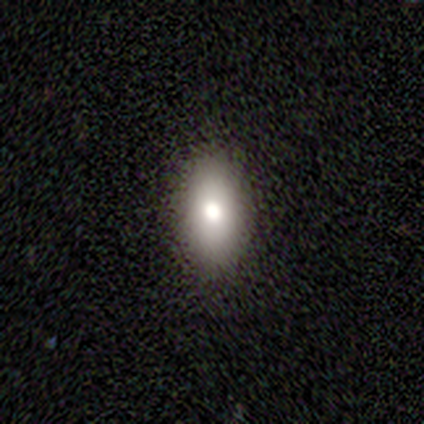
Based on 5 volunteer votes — A smooth galaxy with no disk features (40%, tied with featured or disk) that is in between round and cigar-shaped (50%, tied with cigar-shaped).

Vote fractions:
- Smooth or featured? smooth: 40% (tied) / featured or disk: 40% (tied) / star or artifact: 20%
- How rounded? in between: 50% (tied) / cigar-shaped: 50% (tied) / round: 0%
- Merging? none: 100% / minor disturbance: 0% / major disturbance: 0% / merger: 0%